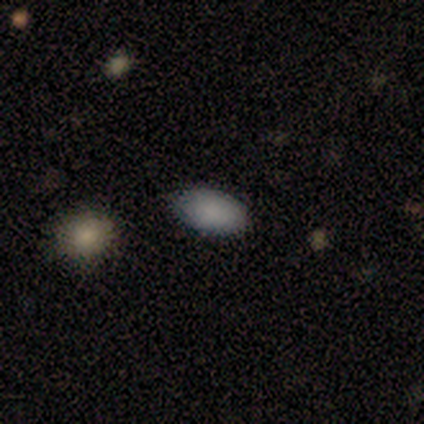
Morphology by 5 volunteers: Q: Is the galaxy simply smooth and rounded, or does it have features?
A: smooth — 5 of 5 (100%).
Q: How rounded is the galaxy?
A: in between — 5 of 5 (100%).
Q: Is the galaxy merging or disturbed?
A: none — 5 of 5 (100%).